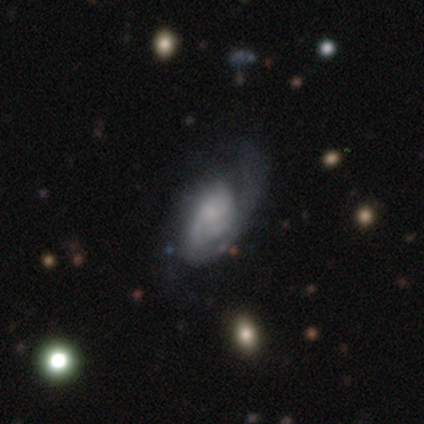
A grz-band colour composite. It shows a featured or disk galaxy (81%) with no bar (81%), medium (46%) spiral arms (90%) and no central bulge (41%). Merging: major disturbance (20%).